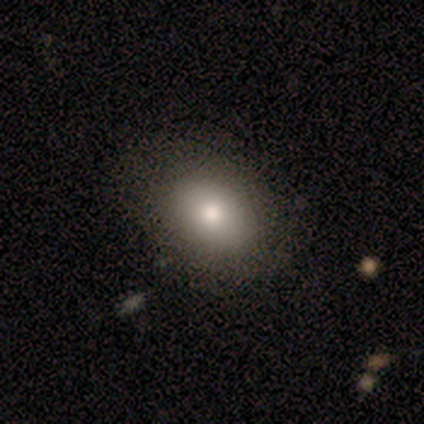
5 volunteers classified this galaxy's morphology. Smooth or featured: smooth — 80% (star or artifact — 20%)
How rounded: round — 75% (in between — 25%)
Merging: none — 75% (minor disturbance — 25%)